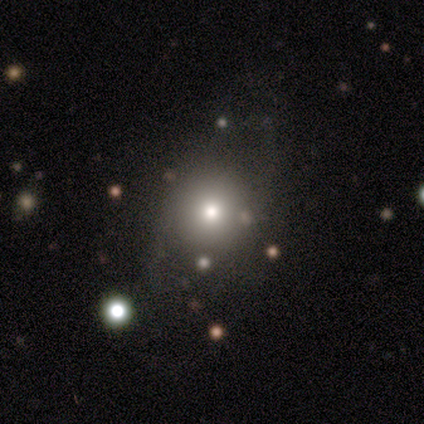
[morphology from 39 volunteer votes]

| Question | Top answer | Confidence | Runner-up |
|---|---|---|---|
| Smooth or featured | smooth | 67% | star or artifact (18%) |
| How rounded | round | 81% | in between (19%) |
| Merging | none | 44% | minor disturbance (12%) |